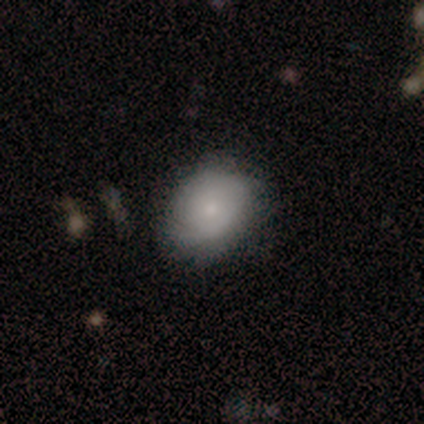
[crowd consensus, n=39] Q: Smooth or featured?
A: smooth (56%); runner-up: featured or disk (44%)
Q: How rounded?
A: in between (59%); runner-up: round (41%)
Q: Merging?
A: none (72%); runner-up: minor disturbance (21%)